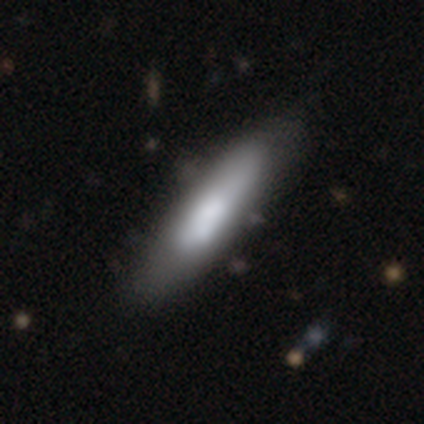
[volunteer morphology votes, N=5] Smooth or featured: smooth — 60% (featured or disk — 40%)
How rounded: cigar-shaped — 67% (in between — 33%)
Merging: none — 80% (merger — 20%)